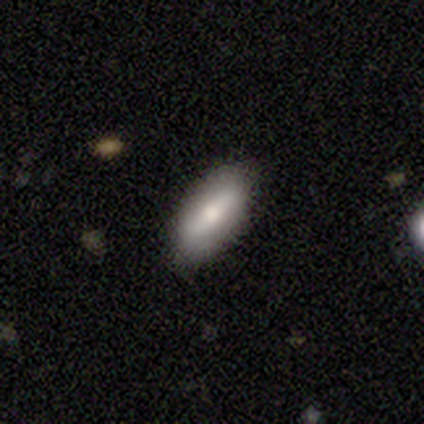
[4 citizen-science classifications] smooth-or-featured: smooth: 75% | featured or disk: 25% | star or artifact: 0%
  how-rounded: in between: 100% | round: 0% | cigar-shaped: 0%
  merging: none: 100% | minor disturbance: 0% | major disturbance: 0% | merger: 0%